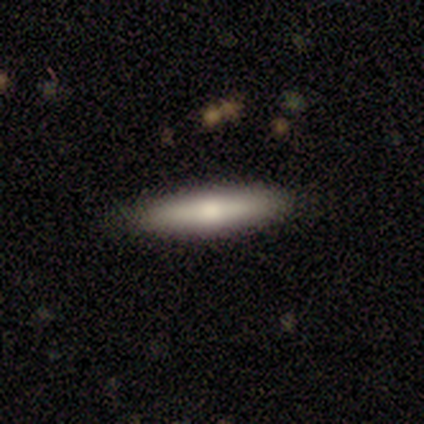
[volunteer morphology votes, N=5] This appears to be a smooth galaxy with no disk features (80%) that is in between round and cigar-shaped (50%, tied with cigar-shaped). Merging: none (100%).